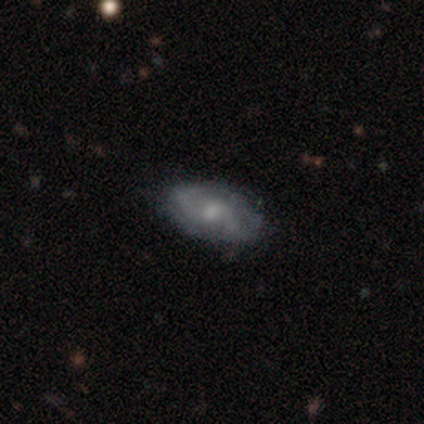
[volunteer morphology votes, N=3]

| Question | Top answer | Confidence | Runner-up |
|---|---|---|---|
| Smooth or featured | featured or disk | 67% | smooth (33%) |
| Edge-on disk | no | 100% | — |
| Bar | no | 100% | — |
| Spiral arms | yes | 50% | tied: no (50%) |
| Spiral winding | medium | 100% | — |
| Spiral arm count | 1 | 100% | — |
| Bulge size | moderate | 100% | — |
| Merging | none | 100% | — |